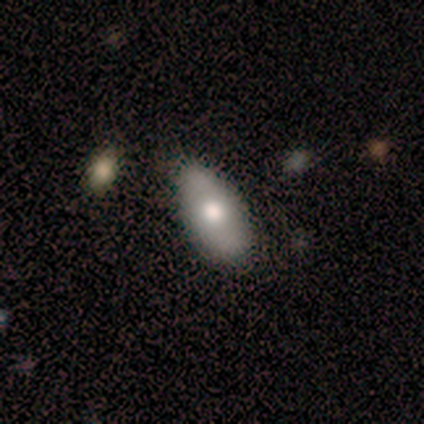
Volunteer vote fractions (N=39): Overall: smooth (72%). How rounded: in between (89%). Merging: none (79%).